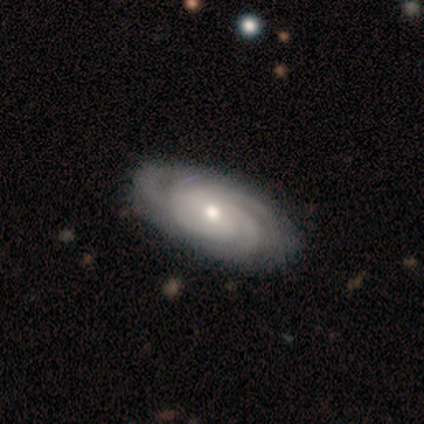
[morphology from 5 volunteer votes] Smooth or featured: featured or disk — 80% (smooth — 20%)
Edge-on disk: no — 100%
Bar: no — 75% (weak — 25%)
Spiral arms: yes — 100%
Spiral winding: tight — 75% (medium — 25%)
Spiral arm count: 2 — 25% (tied with 3 — 25%; 4 — 25%; more than 4 — 25%)
Bulge size: moderate — 75% (small — 25%)
Merging: none — 100%